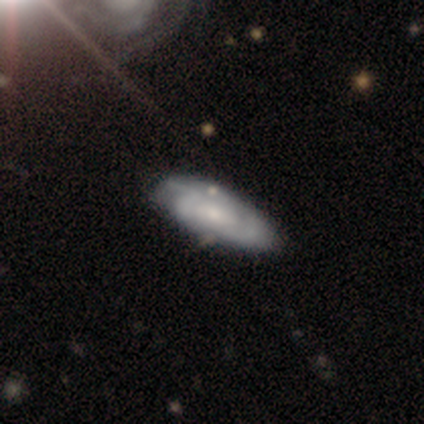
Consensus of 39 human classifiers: Smooth or featured? featured or disk (79%)
Edge-on disk? no (90%)
Bar? no (46%)
Spiral arms? yes (93%)
Spiral winding? tight (50%)
Spiral arm count? 2 (35%, tied with can't tell)
Bulge size? small (64%)
Merging? none (49%)